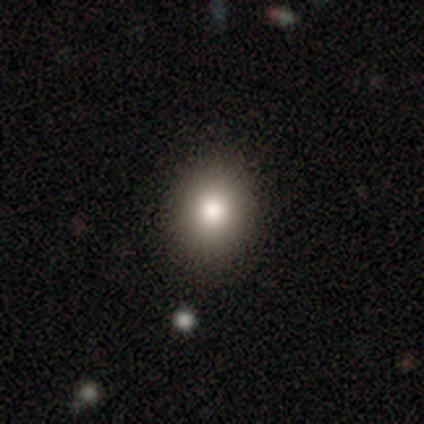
Smooth or featured: smooth — 71% (star or artifact — 20%)
How rounded: in between — 66% (round — 34%)
Merging: none — 97% (minor disturbance — 3%)